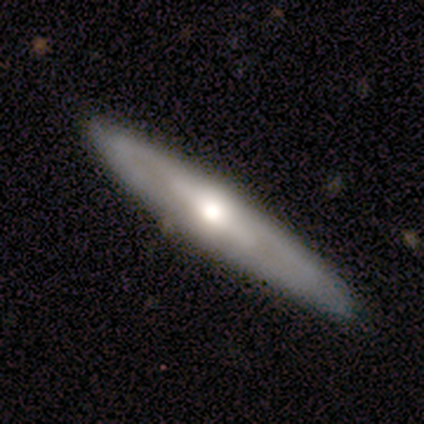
Q: Smooth or featured?
A: featured or disk (80%); runner-up: smooth (20%)
Q: Edge-on disk?
A: yes (88%); runner-up: no (12%)
Q: Edge-on bulge?
A: rounded (71%); runner-up: boxy (14%)
Q: Merging?
A: none (90%); runner-up: major disturbance (10%)